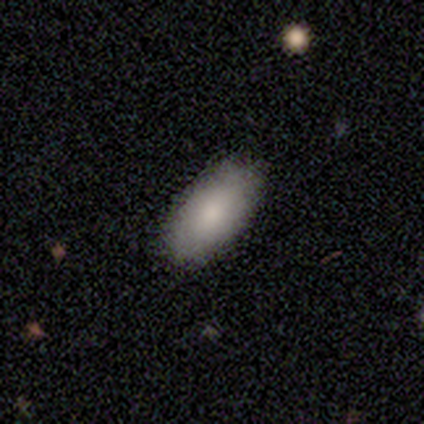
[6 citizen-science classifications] smooth_or_featured: smooth (p=1.00)
how_rounded: in between (p=1.00)
merging: none (p=0.83) [alt: minor disturbance p=0.17]